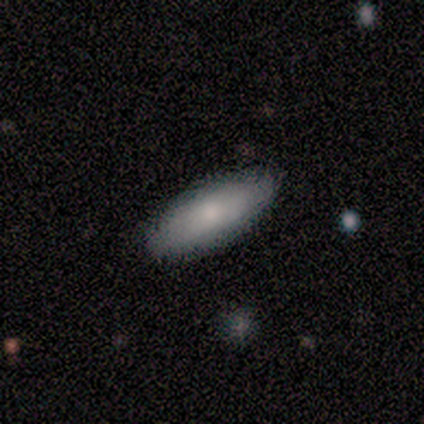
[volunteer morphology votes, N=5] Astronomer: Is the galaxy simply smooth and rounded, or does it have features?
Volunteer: smooth — 100%.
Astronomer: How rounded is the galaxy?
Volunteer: in between — 60% (runner-up: cigar-shaped, 40%).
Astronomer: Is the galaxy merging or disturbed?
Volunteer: none — 80%.